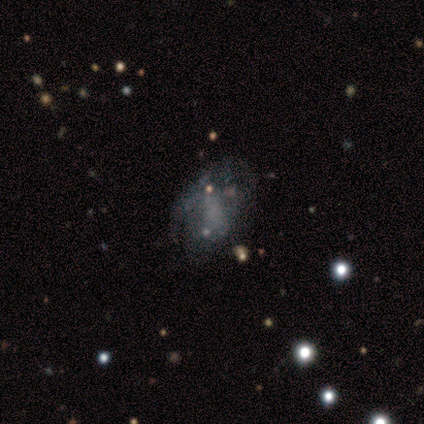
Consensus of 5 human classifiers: A featured or disk galaxy (60%) with no bar (67%), no spiral arms (67%) and no central bulge (67%).

Vote fractions:
- Smooth or featured? featured or disk: 60% / smooth: 20% / star or artifact: 20%
- Edge-on disk? no: 100% / yes: 0%
- Bar? no: 67% / weak: 33% / strong: 0%
- Spiral arms? no: 67% / yes: 33%
- Bulge size? none: 67% / moderate: 33% / dominant: 0% / large: 0% / small: 0%
- Merging? none: 75% / major disturbance: 25% / minor disturbance: 0% / merger: 0%